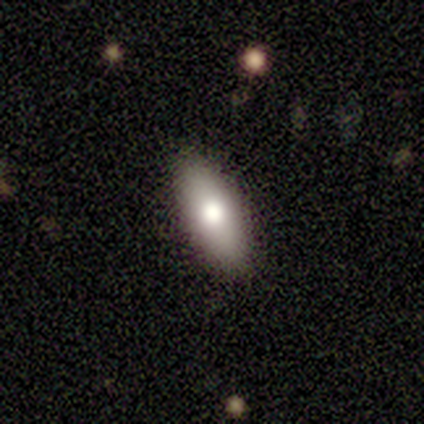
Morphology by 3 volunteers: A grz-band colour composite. It shows a smooth galaxy with no disk features (100%) that is in between round and cigar-shaped (100%). Merging: none (100%).